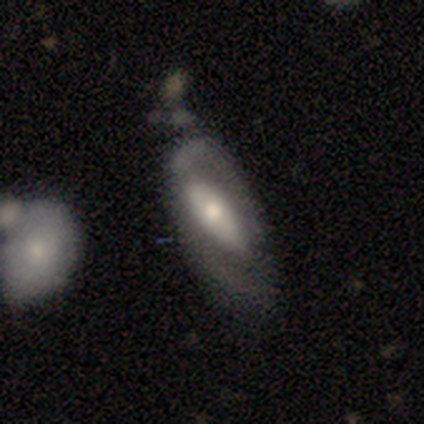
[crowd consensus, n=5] Smooth or featured? 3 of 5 (60%) said smooth. How rounded? 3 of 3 (100%) said in between. Merging? 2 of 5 (40%, tied with major disturbance) said minor disturbance.